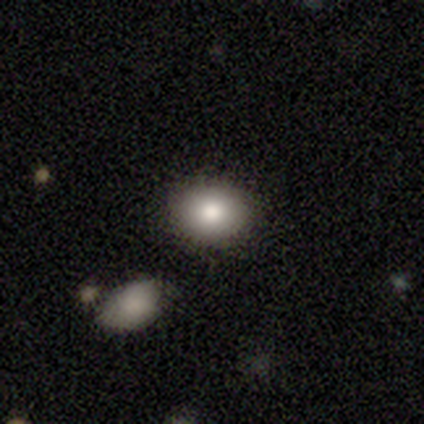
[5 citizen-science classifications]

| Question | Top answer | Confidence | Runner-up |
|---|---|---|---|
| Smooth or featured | smooth | 80% | featured or disk (20%) |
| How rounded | round | 50% | tied: in between (50%) |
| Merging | none | 100% | — |